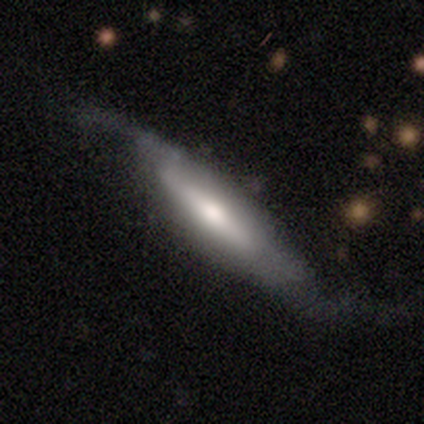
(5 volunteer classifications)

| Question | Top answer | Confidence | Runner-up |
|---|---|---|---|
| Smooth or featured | featured or disk | 100% | — |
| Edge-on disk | no | 60% | yes (40%) |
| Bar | strong | 67% | weak (33%) |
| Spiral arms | yes | 100% | — |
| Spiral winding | loose | 100% | — |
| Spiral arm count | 2 | 100% | — |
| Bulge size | moderate | 100% | — |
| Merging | none | 40% | tied: major disturbance (40%) |